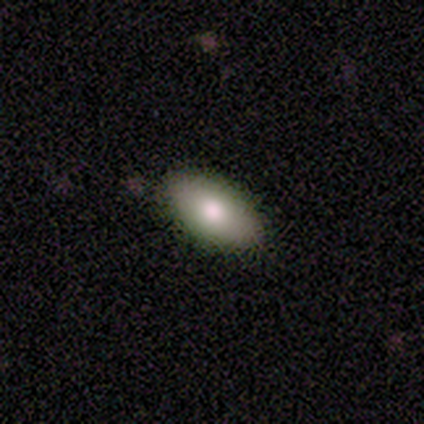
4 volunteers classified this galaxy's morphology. A smooth galaxy with no disk features (75%) that is in between round and cigar-shaped (100%). Merging: none (100%).